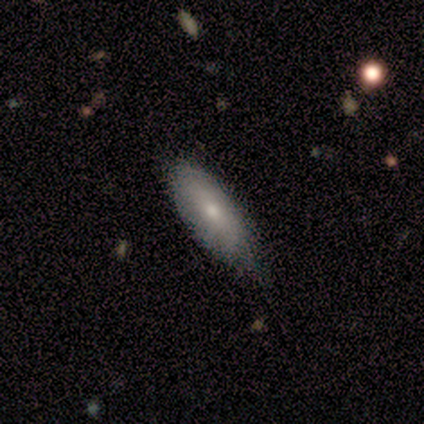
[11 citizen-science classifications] Volunteers were most divided on "merging": none: 55%, minor disturbance: 45%, major disturbance: 0%, merger: 0%. More confident: how rounded — in between (86%); smooth or featured — smooth (64%).